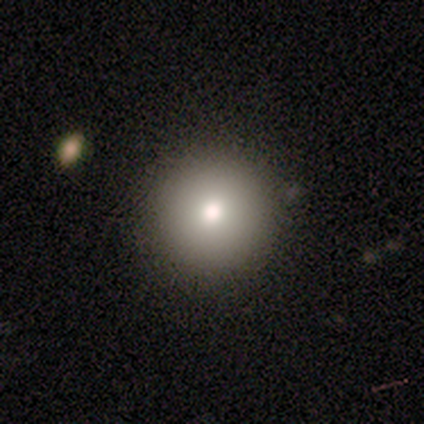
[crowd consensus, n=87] This appears to be a smooth galaxy with no disk features (74%) that is round (98%). Merging: none (88%).